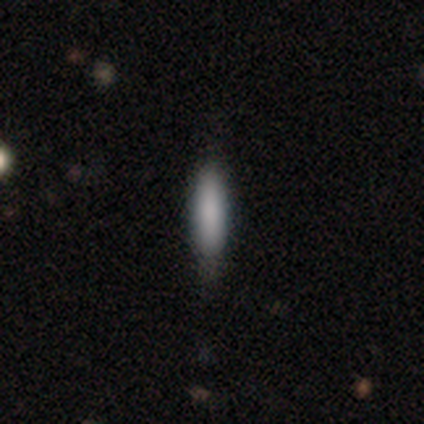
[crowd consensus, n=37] A smooth galaxy with no disk features (70%) that is cigar-shaped (77%).

Vote fractions:
- Smooth or featured? smooth: 70% / featured or disk: 22% / star or artifact: 8%
- How rounded? cigar-shaped: 77% / in between: 23% / round: 0%
- Merging? none: 79% / minor disturbance: 21% / major disturbance: 0% / merger: 0%